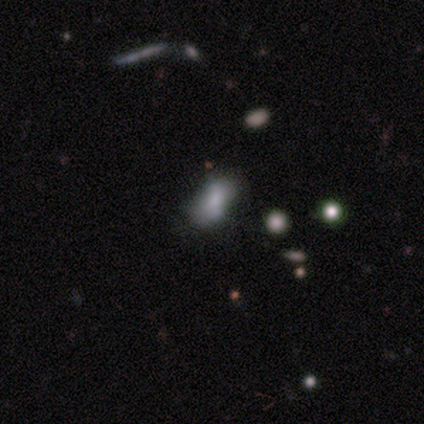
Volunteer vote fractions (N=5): Overall: smooth (40%, tied with featured or disk). How rounded: in between (100%). Merging: minor disturbance (50%; none 25%).